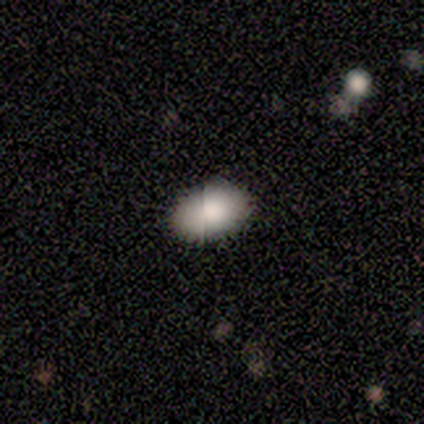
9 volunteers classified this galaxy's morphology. type=smooth (56%); roundness=in between (80%); merging=none (100%).